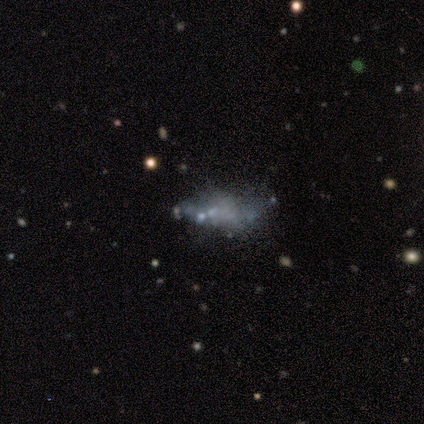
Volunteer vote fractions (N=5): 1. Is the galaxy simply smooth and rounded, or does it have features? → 60% smooth, 40% featured or disk, 0% star or artifact.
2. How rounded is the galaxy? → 100% in between, 0% round, 0% cigar-shaped.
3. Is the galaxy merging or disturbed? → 40% minor disturbance (tied), 40% major disturbance (tied), 20% none, 0% merger.